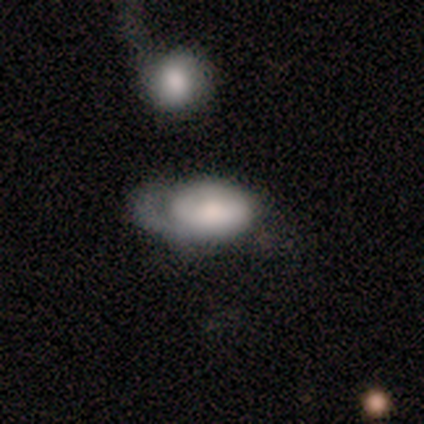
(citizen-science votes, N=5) This appears to be a smooth galaxy with no disk features (100%) that is in between round and cigar-shaped (60%). Merging: none (60%).